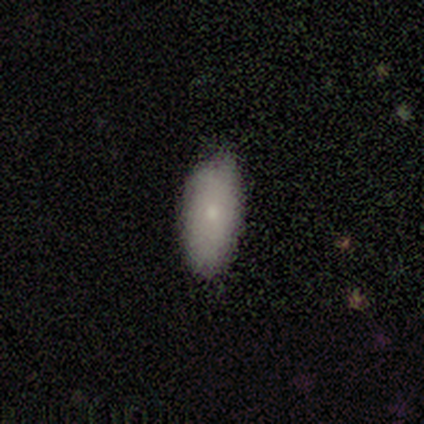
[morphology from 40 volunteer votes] A smooth galaxy with no disk features (68%) that is in between round and cigar-shaped (81%).

Vote fractions:
- Smooth or featured? smooth: 68% / featured or disk: 25% / star or artifact: 8%
- How rounded? in between: 81% / cigar-shaped: 19% / round: 0%
- Merging? none: 65% / minor disturbance: 30% / major disturbance: 3% / merger: 3%